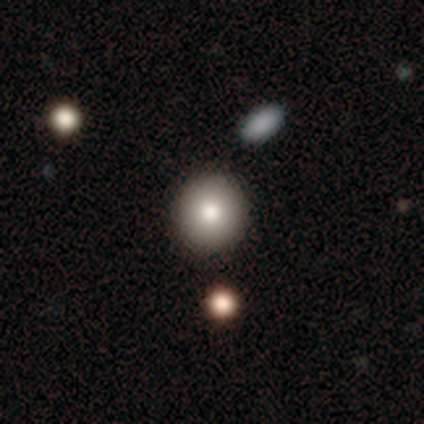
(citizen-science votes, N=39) smooth_or_featured: smooth (p=0.74) [alt: featured or disk p=0.21]
how_rounded: round (p=0.93) [alt: in between p=0.07]
merging: none (p=0.46) [alt: merger p=0.14]